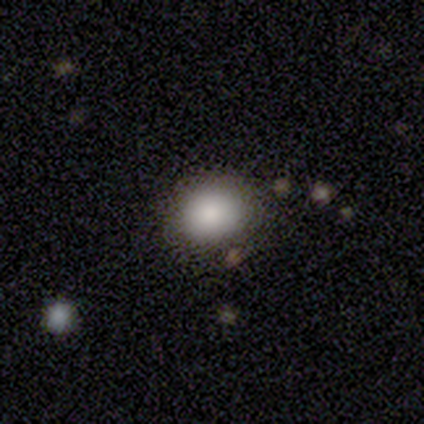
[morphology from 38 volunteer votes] This is clearly a smooth galaxy (84%). How rounded: possibly round (59%). Merging: clearly none (89%).